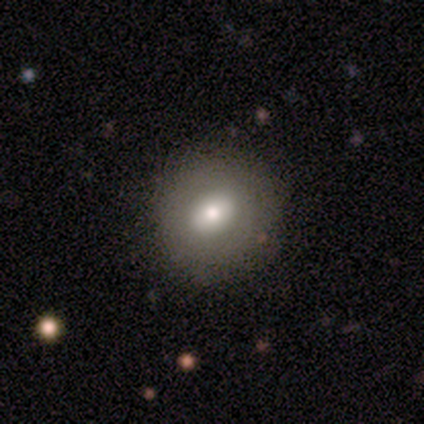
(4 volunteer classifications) smooth 100%, featured or disk 0%, star or artifact 0%. Down the decision tree: how rounded — round (75%); merging — none (50%, tied with minor disturbance).